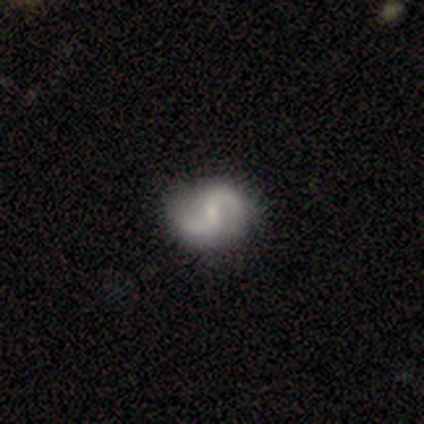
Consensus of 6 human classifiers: Smooth or featured? 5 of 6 (83%) said featured or disk. Edge-on disk? 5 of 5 (100%) said no. Bar? 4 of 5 (80%) said weak. Spiral arms? 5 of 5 (100%) said yes. Spiral winding? 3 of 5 (60%) said loose. Spiral arm count? 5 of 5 (100%) said 2. Bulge size? 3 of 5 (60%) said moderate. Merging? 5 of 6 (83%) said none.